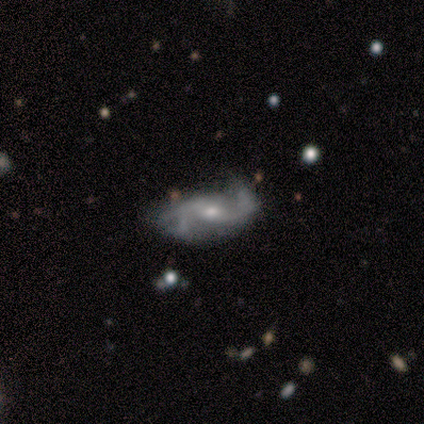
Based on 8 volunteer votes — Smooth or featured?
  - featured or disk: 88% *
  - smooth: 12%
  - star or artifact: 0%
Edge-on disk?
  - no: 100% *
  - yes: 0%
Bar?
  - no: 86% *
  - weak: 14%
  - strong: 0%
Spiral arms?
  - yes: 100% *
  - no: 0%
Spiral winding?
  - loose: 57% *
  - medium: 29%
  - tight: 14%
Spiral arm count?
  - 2: 57% *
  - 3: 29%
  - can't tell: 14%
  - 1: 0%
  - 4: 0%
  - more than 4: 0%
Bulge size?
  - moderate: 57% *
  - small: 43%
  - dominant: 0%
  - large: 0%
  - none: 0%
Merging?
  - minor disturbance: 62% *
  - major disturbance: 25%
  - none: 12%
  - merger: 0%